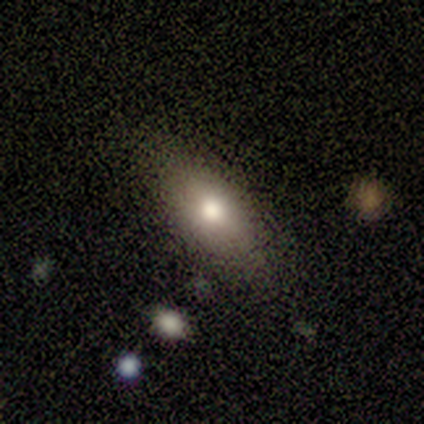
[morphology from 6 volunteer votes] This is clearly a smooth galaxy (83%). How rounded: clearly in between (80%). Merging: clearly none (83%).